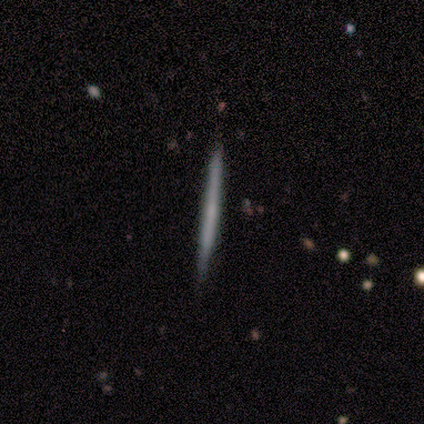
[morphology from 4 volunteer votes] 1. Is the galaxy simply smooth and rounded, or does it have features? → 50% smooth (tied), 50% featured or disk (tied), 0% star or artifact.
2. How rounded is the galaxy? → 100% cigar-shaped, 0% round, 0% in between.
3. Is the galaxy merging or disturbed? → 75% none, 25% minor disturbance, 0% major disturbance, 0% merger.